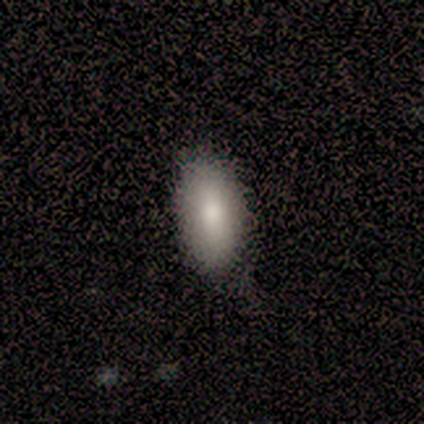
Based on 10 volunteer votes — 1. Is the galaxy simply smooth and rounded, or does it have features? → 100% smooth, 0% featured or disk, 0% star or artifact.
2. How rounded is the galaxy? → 80% in between, 10% round, 10% cigar-shaped.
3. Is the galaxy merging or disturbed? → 90% none, 10% minor disturbance, 0% major disturbance, 0% merger.